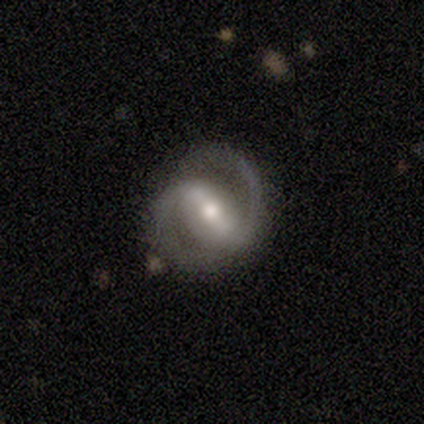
featured or disk 100%, smooth 0%, star or artifact 0%. Down the decision tree: edge-on disk — no (100%); bar — strong (80%); spiral arms — yes (100%); spiral arm count — 2 (100%); spiral winding — medium (60%); bulge size — moderate (60%); merging — none (100%).